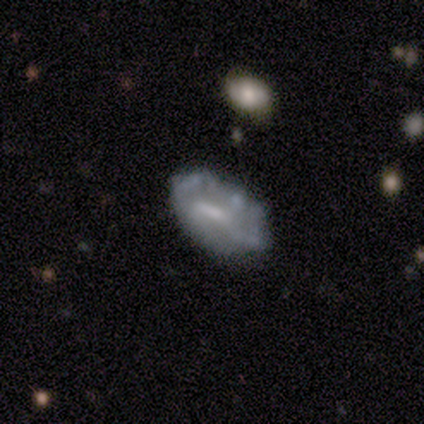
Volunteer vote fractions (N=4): A featured or disk galaxy (75%) with no bar (67%), no spiral arms (100%) and a moderate central bulge (33%, tied with small and none).

Vote fractions:
- Smooth or featured? featured or disk: 75% / smooth: 25% / star or artifact: 0%
- Edge-on disk? no: 100% / yes: 0%
- Bar? no: 67% / weak: 33% / strong: 0%
- Spiral arms? no: 100% / yes: 0%
- Bulge size? moderate: 33% (tied) / small: 33% (tied) / none: 33% (tied) / dominant: 0% / large: 0%
- Merging? minor disturbance: 50% / none: 25% / major disturbance: 25% / merger: 0%